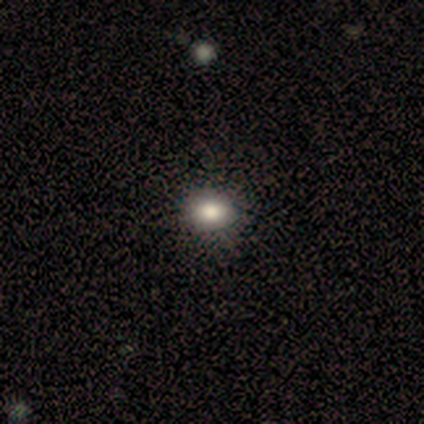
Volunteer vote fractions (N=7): smooth_or_featured: smooth (p=0.71) [alt: star or artifact p=0.29]
how_rounded: round (p=0.80) [alt: in between p=0.20]
merging: none (p=0.80) [alt: minor disturbance p=0.20]